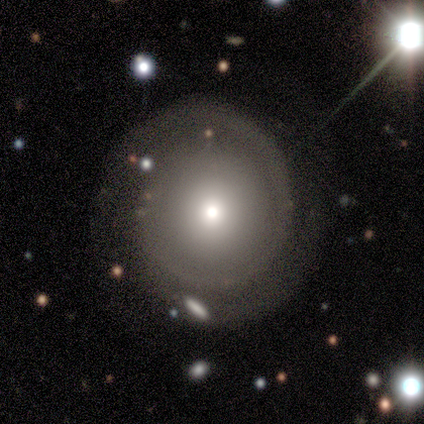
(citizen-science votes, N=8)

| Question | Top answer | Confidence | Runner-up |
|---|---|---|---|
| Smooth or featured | featured or disk | 50% | smooth (25%) |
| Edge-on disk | no | 100% | — |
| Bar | no | 50% | strong (25%) |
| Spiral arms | yes | 100% | — |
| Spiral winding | tight | 50% | medium (25%) |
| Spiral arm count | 2 | 75% | 1 (25%) |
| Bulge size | large | 50% | moderate (25%) |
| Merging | none | 67% | minor disturbance (17%) |